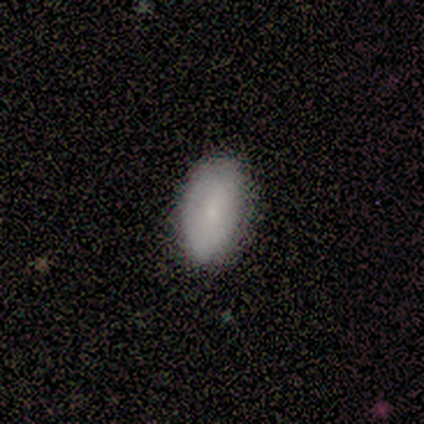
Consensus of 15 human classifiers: Morphology: type=smooth (80%); roundness=in between (100%); merging=none (80%).